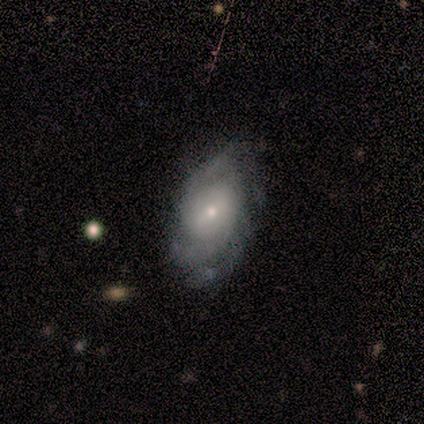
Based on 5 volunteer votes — A featured or disk galaxy (80%) with no bar (75%), 3 (67%) medium (67%) spiral arms (75%) and a small central bulge (50%). Merging: none (60%).